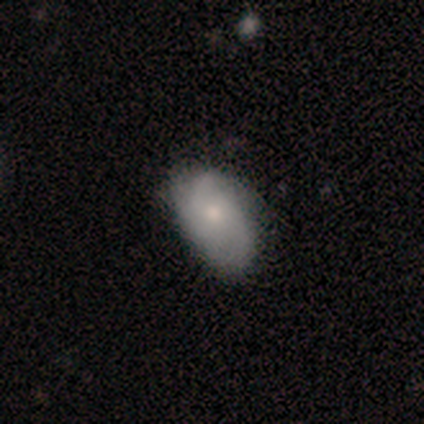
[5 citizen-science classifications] Smooth or featured? 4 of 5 (80%) said smooth. How rounded? 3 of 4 (75%) said in between. Merging? 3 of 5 (60%) said none.